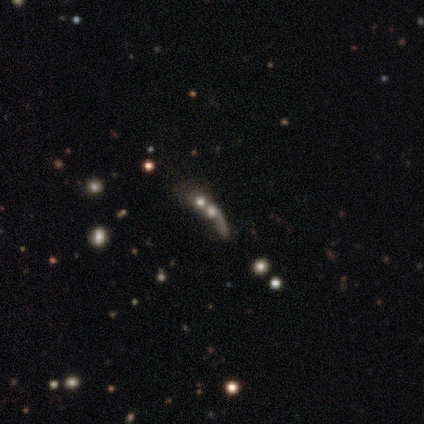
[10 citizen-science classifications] featured or disk 40% (tied), star or artifact 40% (tied), smooth 20%. Down the decision tree: edge-on disk — yes (50%, tied with no); edge-on bulge — none (50%, tied with rounded); merging — merger (67%).